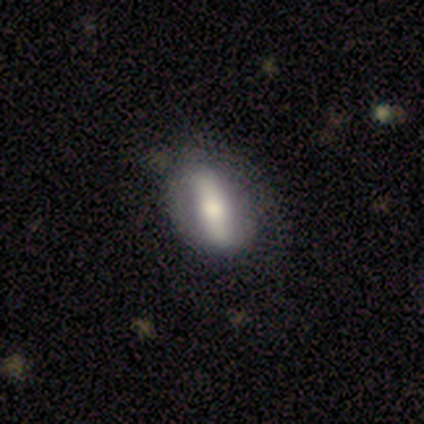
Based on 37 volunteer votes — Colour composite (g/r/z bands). It shows a featured or disk galaxy (49%) with a strong bar (82%), no spiral arms (55%) and a moderate central bulge (55%). Merging: none (77%).